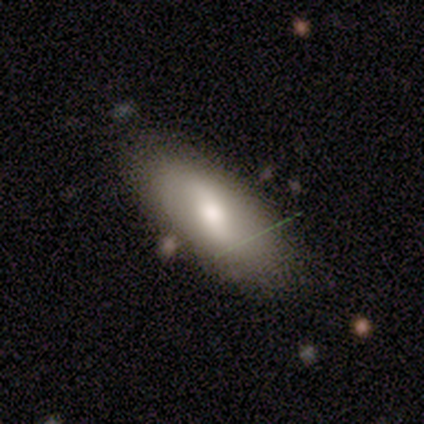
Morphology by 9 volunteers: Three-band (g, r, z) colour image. It shows a smooth galaxy with no disk features (67%) that is in between round and cigar-shaped (100%). Merging: none (89%).